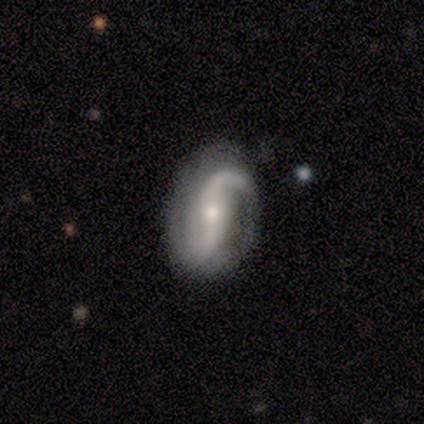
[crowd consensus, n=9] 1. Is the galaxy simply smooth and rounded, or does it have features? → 100% featured or disk, 0% smooth, 0% star or artifact.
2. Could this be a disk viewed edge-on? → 100% no, 0% yes.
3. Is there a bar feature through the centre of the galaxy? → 44% no, 33% weak, 22% strong.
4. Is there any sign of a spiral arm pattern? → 100% yes, 0% no.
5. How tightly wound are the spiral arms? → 67% loose, 22% tight, 11% medium.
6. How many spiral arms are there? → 100% 2, 0% 1, 0% 3, 0% 4, 0% more than 4, 0% can't tell.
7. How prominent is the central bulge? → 56% small, 33% moderate, 11% large, 0% dominant, 0% none.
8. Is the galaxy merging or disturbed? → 89% none, 11% minor disturbance, 0% major disturbance, 0% merger.